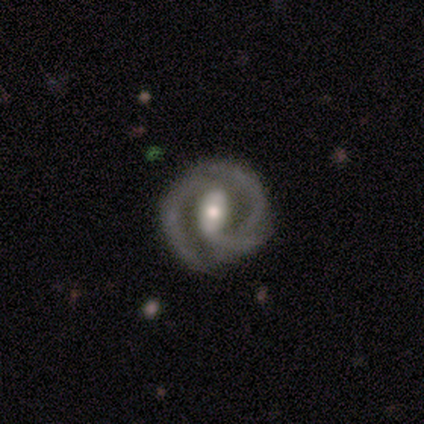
Smooth or featured: featured or disk — 75% (star or artifact — 25%)
Edge-on disk: no — 100%
Bar: strong — 67% (weak — 33%)
Spiral arms: yes — 100%
Spiral winding: tight — 67% (loose — 33%)
Spiral arm count: 2 — 100%
Bulge size: moderate — 100%
Merging: none — 67% (minor disturbance — 33%)